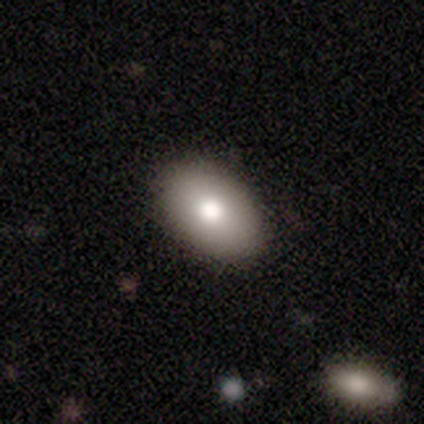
Morphology: type=smooth (81%); roundness=in between (91%); merging=none (90%).